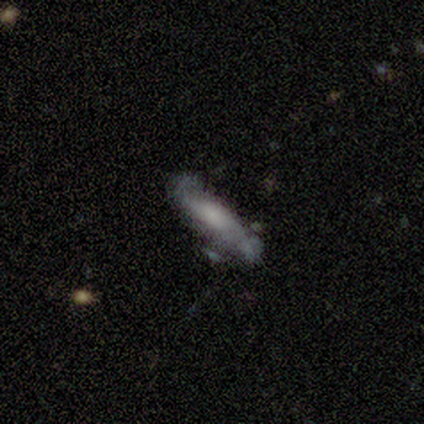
Overall: smooth (60%; featured or disk 40%). How rounded: cigar-shaped (100%). Merging: none (80%).